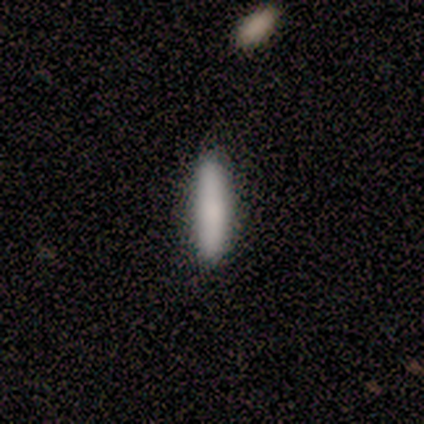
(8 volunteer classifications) smooth 62%, featured or disk 25%, star or artifact 12%. Down the decision tree: how rounded — cigar-shaped (100%); merging — none (100%).